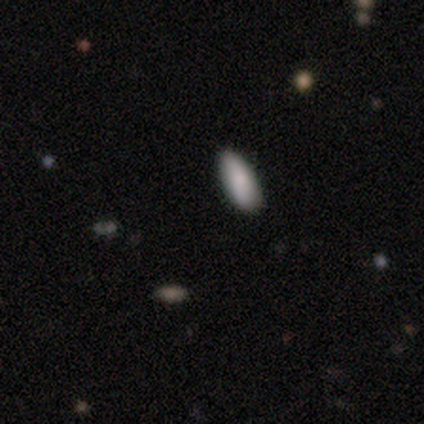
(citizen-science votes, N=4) This is clearly a smooth galaxy (100%). How rounded: clearly in between (100%). Merging: clearly none (100%).